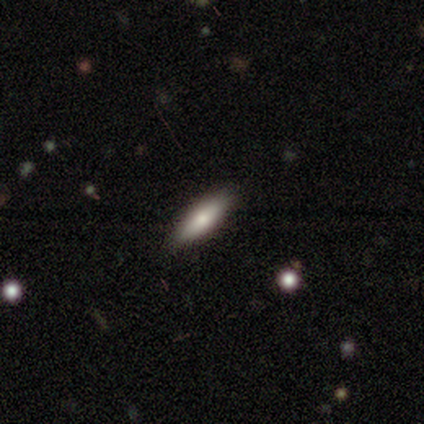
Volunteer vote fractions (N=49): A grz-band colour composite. It shows a smooth galaxy with no disk features (69%) that is cigar-shaped (62%). Merging: none (89%).